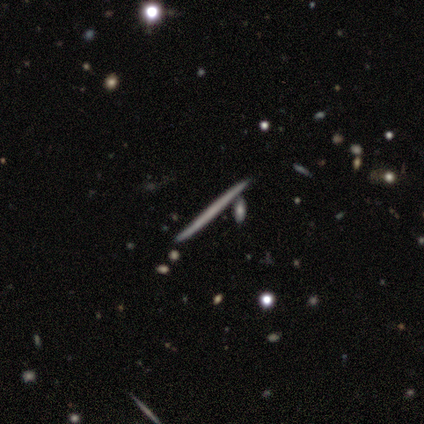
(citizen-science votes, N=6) Volunteers were most divided on "smooth or featured": featured or disk: 67%, smooth: 17%, star or artifact: 17%. More confident: edge-on disk — yes (100%); edge-on bulge — none (100%); merging — none (80%).